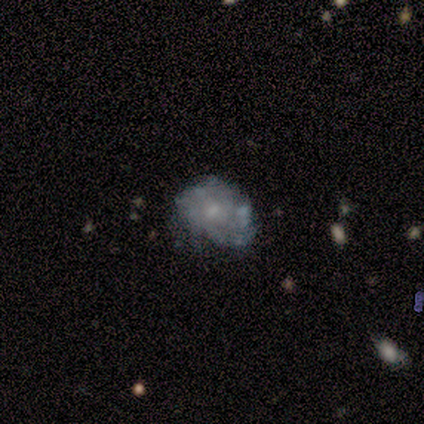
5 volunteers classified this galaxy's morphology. Smooth or featured? featured or disk (60%)
Edge-on disk? no (100%)
Bar? no (100%)
Spiral arms? no (67%)
Bulge size? small (100%)
Merging? none (40%, tied with minor disturbance)